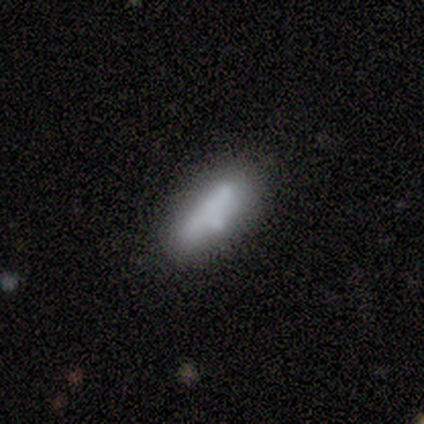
Morphology: type=smooth (100%); roundness=in between (80%); merging=merger (60%).